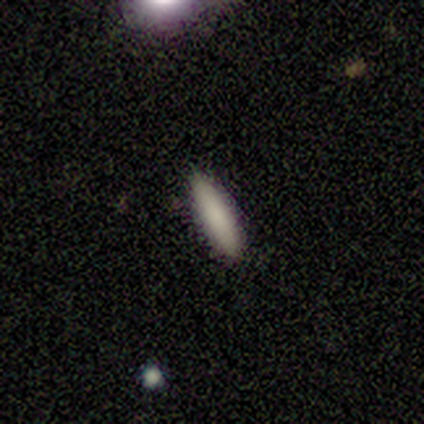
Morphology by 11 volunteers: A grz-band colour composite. It shows a smooth galaxy with no disk features (82%) that is cigar-shaped (78%). Merging: none (91%).